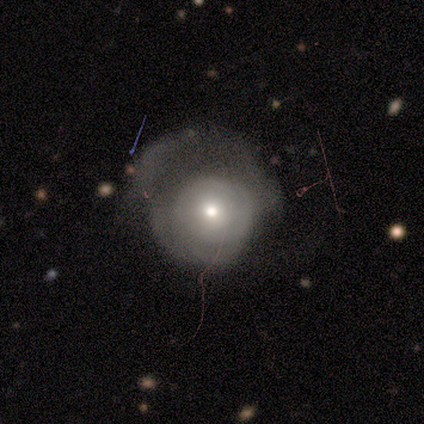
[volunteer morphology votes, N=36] smooth_or_featured: featured or disk (p=0.58) [alt: smooth p=0.33]
disk_edge_on: no (p=1.00)
bar: no (p=0.86) [alt: weak p=0.10]
has_spiral_arms: no (p=0.52) [alt: yes p=0.48]
bulge_size: moderate (p=0.52) [alt: small p=0.43]
merging: major disturbance (p=0.58) [alt: none p=0.33]